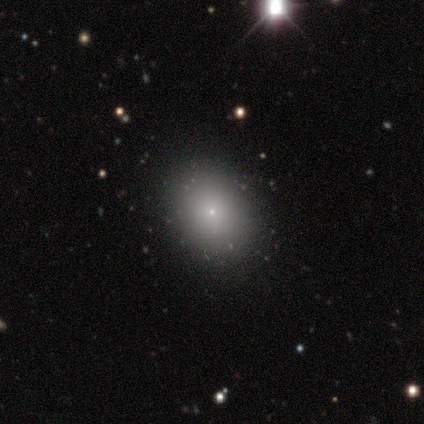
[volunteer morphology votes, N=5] A smooth galaxy with no disk features (40%, tied with featured or disk) that is in between round and cigar-shaped (100%). Merging: none (100%).